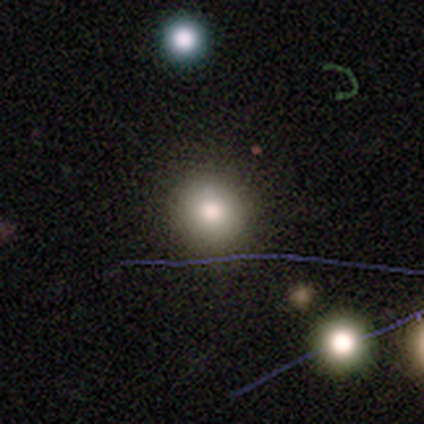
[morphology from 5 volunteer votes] smooth_or_featured: smooth (p=0.80) [alt: star or artifact p=0.20]
how_rounded: round (p=1.00)
merging: none (p=1.00)